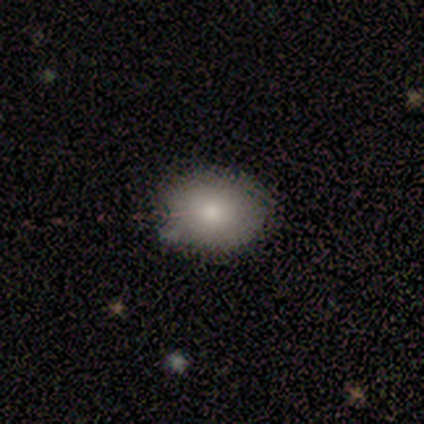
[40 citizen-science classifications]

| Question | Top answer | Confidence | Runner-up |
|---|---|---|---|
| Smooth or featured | smooth | 78% | featured or disk (18%) |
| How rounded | in between | 65% | round (35%) |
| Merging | none | 61% | minor disturbance (11%) |